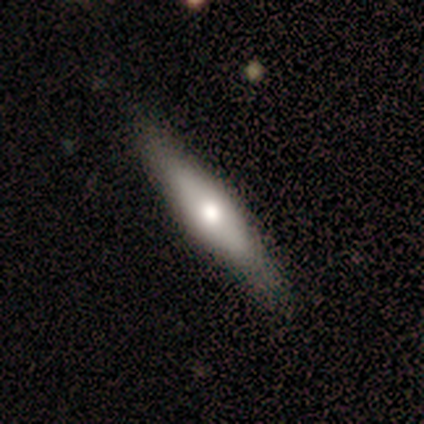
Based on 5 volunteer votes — This appears to be a smooth galaxy with no disk features (60%) that is in between round and cigar-shaped (67%). Merging: minor disturbance (60%).